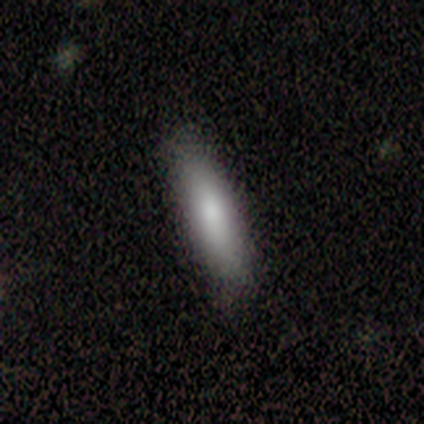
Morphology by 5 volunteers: Smooth or featured? smooth (80%)
How rounded? cigar-shaped (100%)
Merging? none (100%)